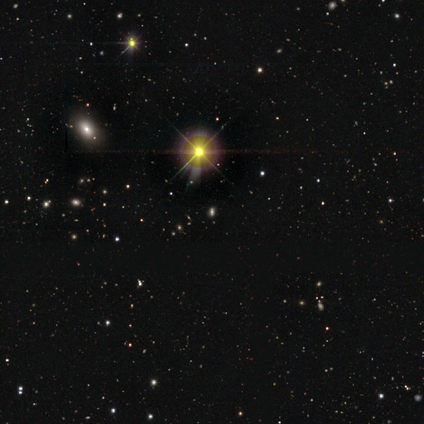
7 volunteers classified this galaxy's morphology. Q: Smooth or featured?
A: star or artifact (86%); runner-up: smooth (14%)